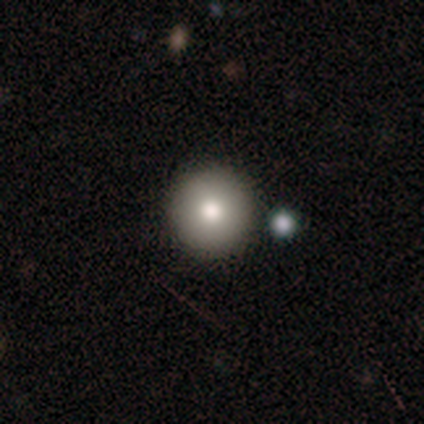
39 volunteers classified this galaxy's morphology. Smooth or featured: smooth — 79% (featured or disk — 10%)
How rounded: round — 97% (in between — 3%)
Merging: none — 83% (merger — 9%)